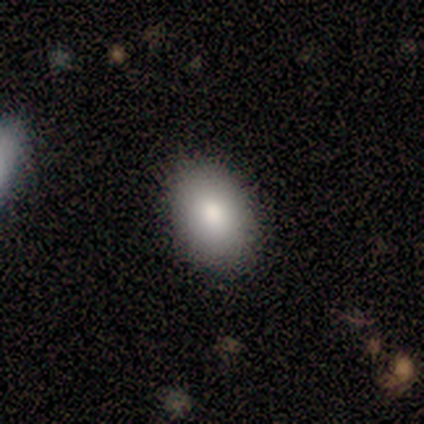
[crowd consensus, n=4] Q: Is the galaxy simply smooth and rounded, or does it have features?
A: smooth — 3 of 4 (75%).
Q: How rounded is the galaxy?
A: in between — 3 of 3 (100%).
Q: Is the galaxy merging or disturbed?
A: none — 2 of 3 (67%).